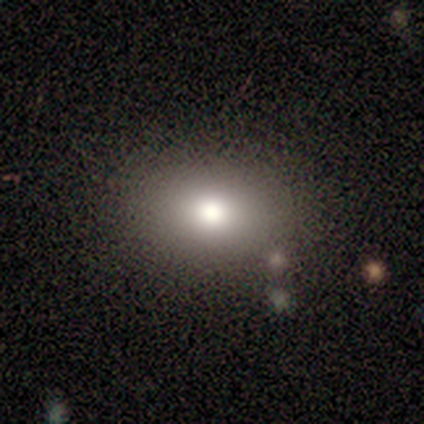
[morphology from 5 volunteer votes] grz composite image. It shows a smooth galaxy with no disk features (60%) that is in between round and cigar-shaped (67%). Merging: none (75%).